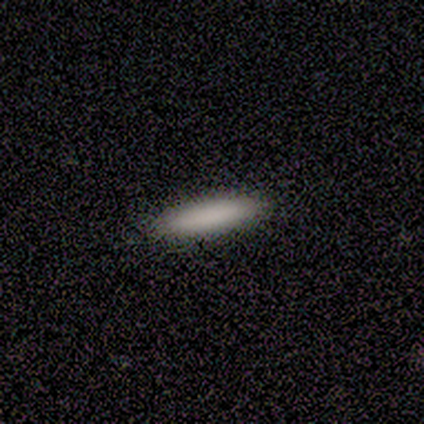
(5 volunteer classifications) A smooth galaxy with no disk features (100%) that is cigar-shaped (80%).

Vote fractions:
- Smooth or featured? smooth: 100% / featured or disk: 0% / star or artifact: 0%
- How rounded? cigar-shaped: 80% / in between: 20% / round: 0%
- Merging? none: 100% / minor disturbance: 0% / major disturbance: 0% / merger: 0%